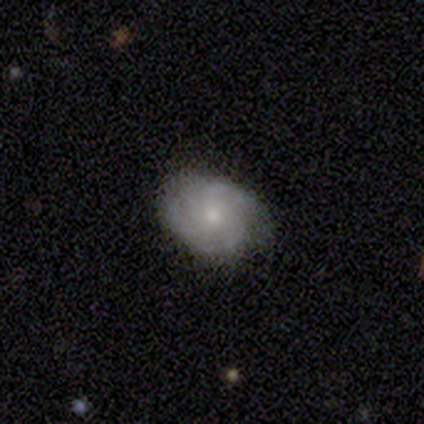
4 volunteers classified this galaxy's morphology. Smooth or featured? 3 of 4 (75%) said featured or disk. Edge-on disk? 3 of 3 (100%) said no. Bar? 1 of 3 (33%, tied with weak and no) said strong. Spiral arms? 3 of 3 (100%) said yes. Spiral winding? 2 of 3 (67%) said tight. Spiral arm count? 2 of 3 (67%) said can't tell. Bulge size? 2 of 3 (67%) said small. Merging? 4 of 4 (100%) said none.